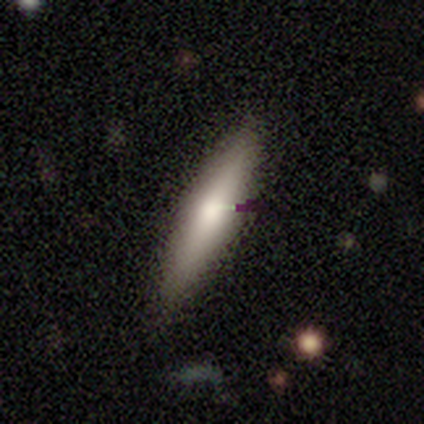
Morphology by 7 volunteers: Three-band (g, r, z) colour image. It shows a smooth galaxy with no disk features (71%) that is cigar-shaped (100%). Merging: none (100%).